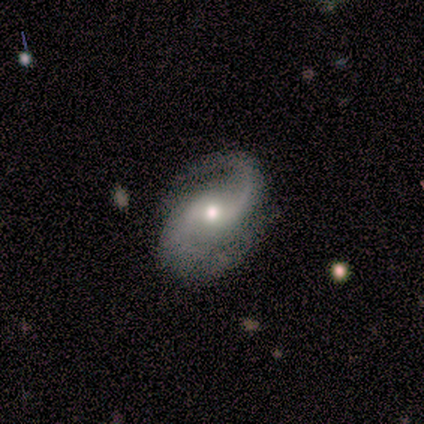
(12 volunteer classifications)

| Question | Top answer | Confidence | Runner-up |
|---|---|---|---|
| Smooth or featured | featured or disk | 92% | smooth (8%) |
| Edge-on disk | no | 91% | yes (9%) |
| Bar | no | 70% | weak (20%) |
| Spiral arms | yes | 100% | — |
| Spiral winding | medium | 50% | loose (40%) |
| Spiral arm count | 2 | 90% | 1 (10%) |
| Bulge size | moderate | 60% | small (40%) |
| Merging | none | 42% | minor disturbance (33%) |